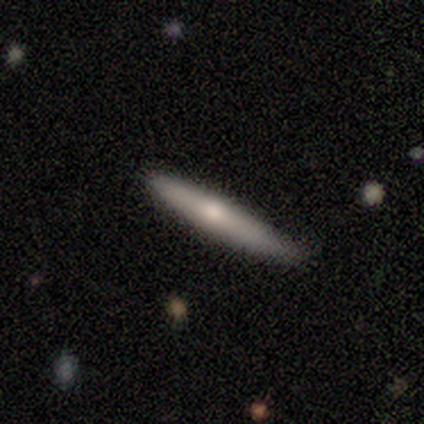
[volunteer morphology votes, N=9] A smooth galaxy with no disk features (56%) that is cigar-shaped (100%).

Vote fractions:
- Smooth or featured? smooth: 56% / featured or disk: 44% / star or artifact: 0%
- How rounded? cigar-shaped: 100% / round: 0% / in between: 0%
- Merging? none: 56% / minor disturbance: 44% / major disturbance: 0% / merger: 0%